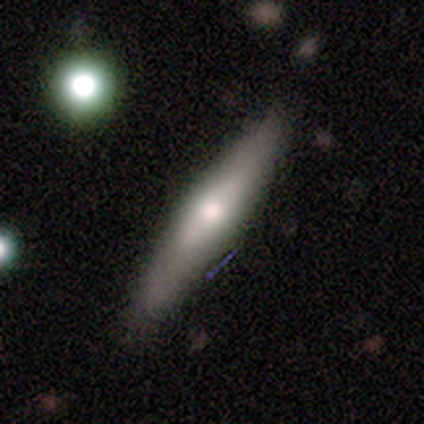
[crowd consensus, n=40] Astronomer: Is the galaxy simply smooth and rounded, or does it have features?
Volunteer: featured or disk — 50% (runner-up: smooth, 45%).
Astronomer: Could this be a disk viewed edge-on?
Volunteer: yes — 75%.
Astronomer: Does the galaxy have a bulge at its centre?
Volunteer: rounded — 67%.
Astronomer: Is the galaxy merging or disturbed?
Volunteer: none — 55%.